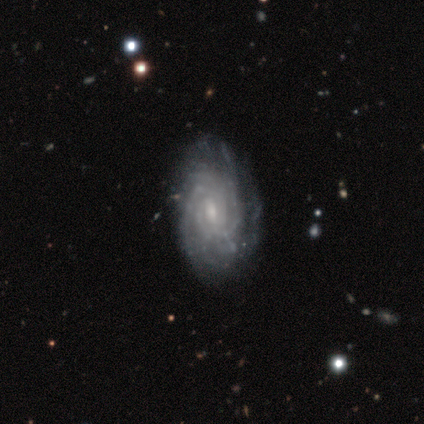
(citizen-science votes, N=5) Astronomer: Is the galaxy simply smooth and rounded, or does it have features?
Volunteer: featured or disk — 100%.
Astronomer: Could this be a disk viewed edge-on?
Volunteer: no — 80%.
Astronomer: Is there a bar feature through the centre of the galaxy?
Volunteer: weak — 50%, tied with no at 50%.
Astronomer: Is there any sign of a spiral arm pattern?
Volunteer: yes — 100%.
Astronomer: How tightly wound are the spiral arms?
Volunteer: tight — 75%.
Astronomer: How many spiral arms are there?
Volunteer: can't tell — 75%.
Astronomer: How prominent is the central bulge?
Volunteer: moderate — 50%, tied with small at 50%.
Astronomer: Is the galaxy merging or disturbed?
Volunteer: none — 80%.